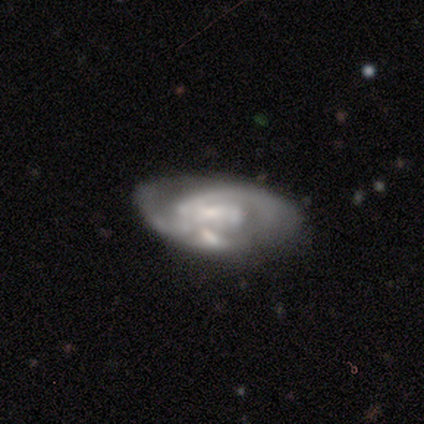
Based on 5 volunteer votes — Smooth or featured? featured or disk (100%)
Edge-on disk? no (100%)
Bar? weak (40%, tied with no)
Spiral arms? yes (80%)
Spiral winding? medium (50%)
Spiral arm count? 2 (100%)
Bulge size? small (40%, tied with none)
Merging? none (80%)